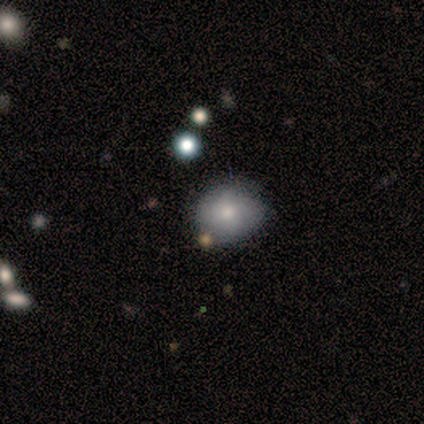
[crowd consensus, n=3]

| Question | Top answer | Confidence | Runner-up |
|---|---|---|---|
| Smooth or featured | smooth | 67% | featured or disk (33%) |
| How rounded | round | 100% | — |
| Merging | none | 100% | — |